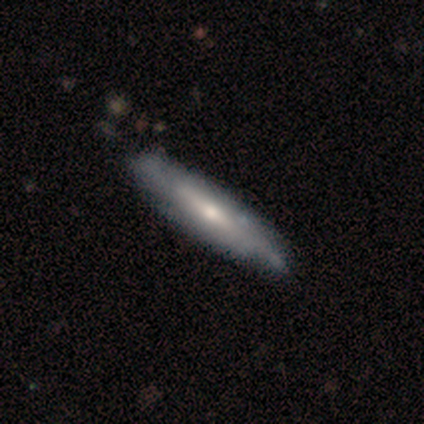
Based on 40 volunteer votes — This appears to be a featured or disk galaxy (68%) viewed edge-on (59%) with a rounded central bulge (69%). Merging: none (48%).